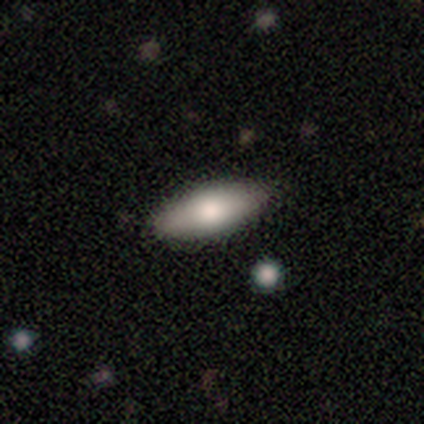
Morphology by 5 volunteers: type=smooth (80%); roundness=in between (75%); merging=none (80%).